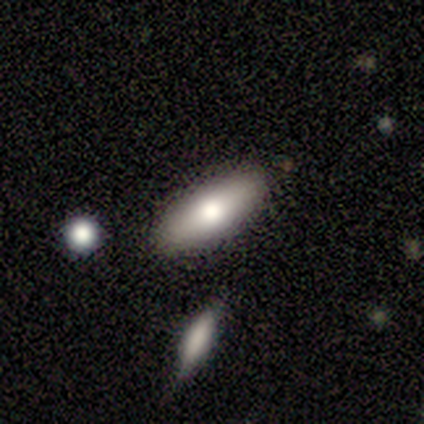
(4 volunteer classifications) Smooth or featured: smooth — 100%
How rounded: in between — 75% (cigar-shaped — 25%)
Merging: none — 100%